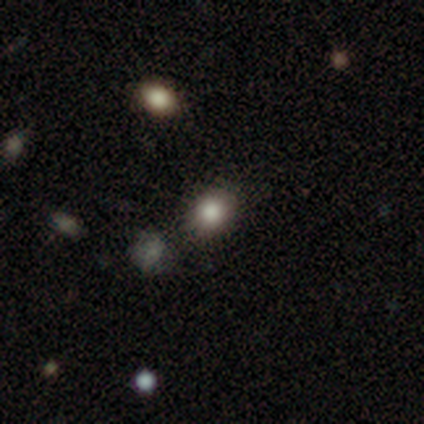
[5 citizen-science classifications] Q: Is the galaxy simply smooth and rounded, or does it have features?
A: smooth — 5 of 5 (100%).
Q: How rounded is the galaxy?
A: round — 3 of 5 (60%).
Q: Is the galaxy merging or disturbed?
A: minor disturbance — 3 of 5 (60%).